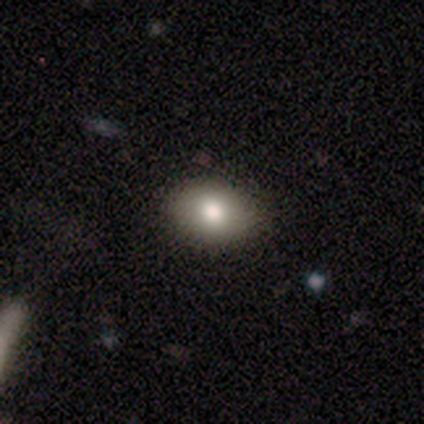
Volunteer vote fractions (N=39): Morphology: type=smooth (90%); roundness=in between (83%); merging=none (54%).